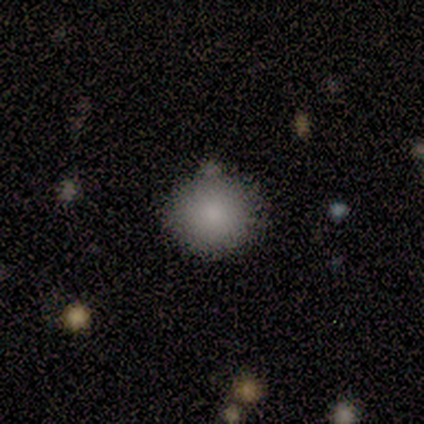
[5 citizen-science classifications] Smooth or featured? 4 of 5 (80%) said smooth. How rounded? 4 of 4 (100%) said round. Merging? 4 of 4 (100%) said none.